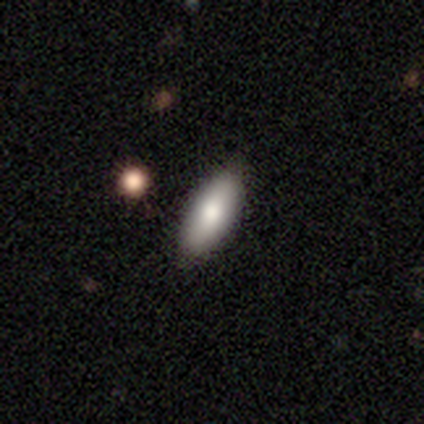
Smooth or featured?
  - smooth: 79% *
  - featured or disk: 18%
  - star or artifact: 3%
How rounded?
  - in between: 81% *
  - cigar-shaped: 19%
  - round: 0%
Merging?
  - none: 89% *
  - minor disturbance: 11%
  - major disturbance: 0%
  - merger: 0%